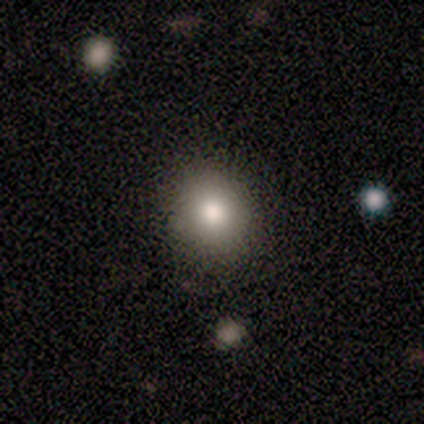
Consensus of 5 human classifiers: Smooth or featured: smooth — 100%
How rounded: round — 80% (in between — 20%)
Merging: none — 100%